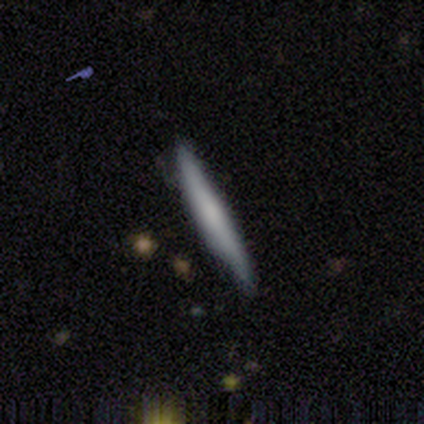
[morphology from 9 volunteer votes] Volunteers were most divided on "smooth or featured": smooth: 56%, featured or disk: 44%, star or artifact: 0%. More confident: how rounded — cigar-shaped (100%); merging — none (89%).